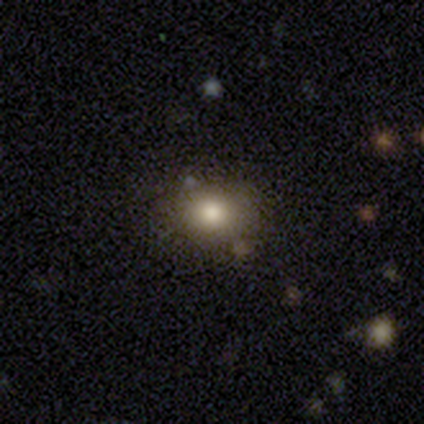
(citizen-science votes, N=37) smooth_or_featured: smooth (p=0.86) [alt: star or artifact p=0.08]
how_rounded: round (p=0.59) [alt: in between p=0.41]
merging: none (p=0.79) [alt: minor disturbance p=0.15]